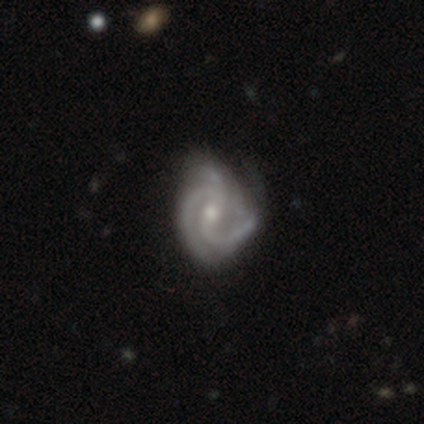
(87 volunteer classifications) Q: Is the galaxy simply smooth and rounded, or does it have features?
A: featured or disk — 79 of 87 (91%).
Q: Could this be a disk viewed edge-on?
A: no — 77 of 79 (97%).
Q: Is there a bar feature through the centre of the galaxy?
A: weak — 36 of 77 (47%).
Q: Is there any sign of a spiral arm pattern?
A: yes — 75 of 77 (97%).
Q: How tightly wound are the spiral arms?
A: medium — 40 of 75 (53%).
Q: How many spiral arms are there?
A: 2 — 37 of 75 (49%).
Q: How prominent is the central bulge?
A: small — 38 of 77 (49%).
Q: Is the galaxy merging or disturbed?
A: none — 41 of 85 (48%).